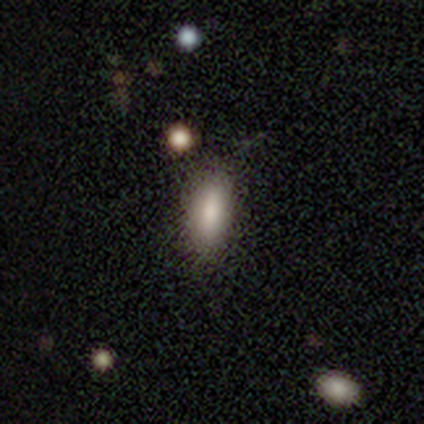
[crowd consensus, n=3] Overall: smooth (100%). How rounded: in between (67%; cigar-shaped 33%). Merging: none (100%).